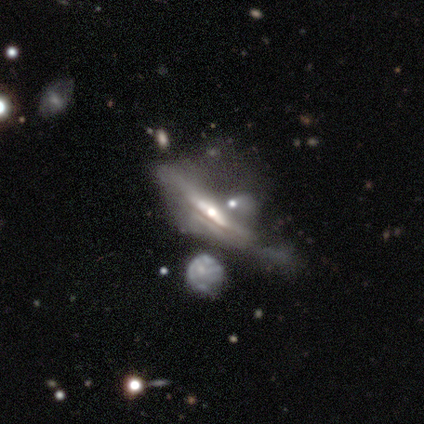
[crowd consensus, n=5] Smooth or featured: featured or disk — 40% (tied with star or artifact — 40%)
Edge-on disk: yes — 50% (tied with no — 50%)
Edge-on bulge: rounded — 100%
Merging: none — 67% (minor disturbance — 33%)